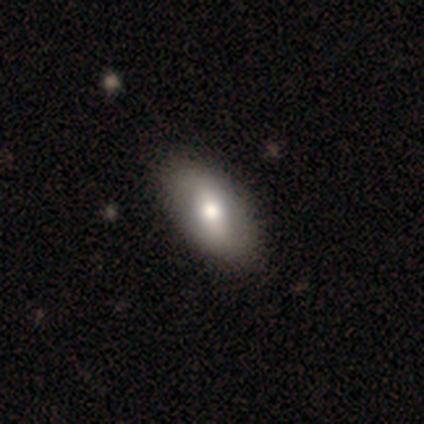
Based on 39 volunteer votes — smooth_or_featured: smooth (p=0.49) [alt: featured or disk p=0.46]
how_rounded: in between (p=1.00)
merging: none (p=0.76) [alt: minor disturbance p=0.03]